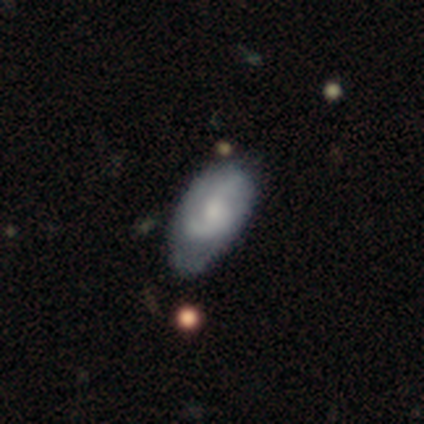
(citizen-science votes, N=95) Overall: featured or disk (60%; smooth 37%). Edge-on disk: no (100%). Bar: no (68%; weak 30%). Spiral arms: yes (81%). Spiral arm count: 2 (63%; can't tell 30%). Spiral winding: loose (39%; tight 30%). Bulge size: moderate (46%; small 33%). Merging: minor disturbance (48%; none 43%).